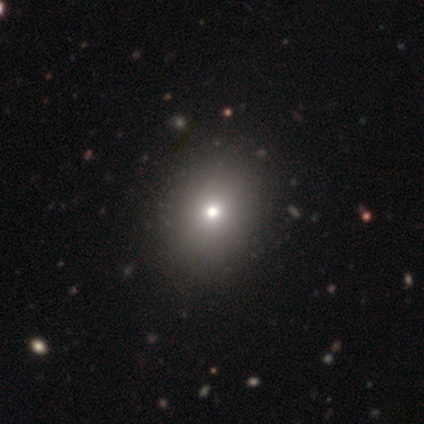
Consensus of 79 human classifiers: Overall: smooth (68%). How rounded: round (67%; in between 33%). Merging: none (47%).